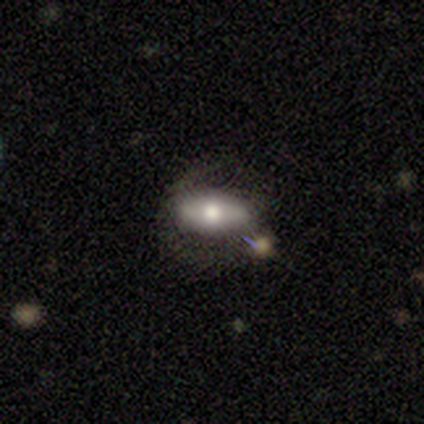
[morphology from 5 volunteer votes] Smooth or featured? 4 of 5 (80%) said smooth. How rounded? 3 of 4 (75%) said in between. Merging? 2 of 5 (40%, tied with minor disturbance) said none.